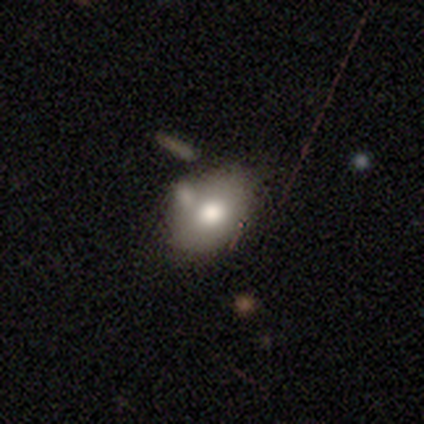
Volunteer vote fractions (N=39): Smooth or featured? 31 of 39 (79%) said smooth. How rounded? 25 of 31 (81%) said in between. Merging? 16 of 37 (43%) said merger.